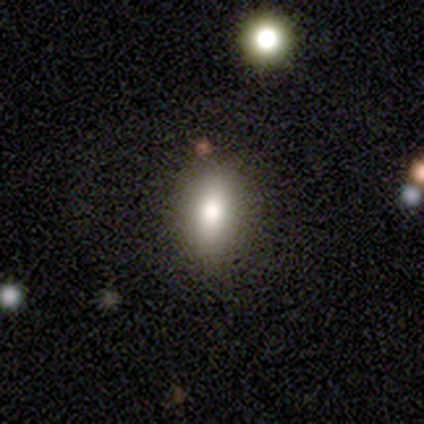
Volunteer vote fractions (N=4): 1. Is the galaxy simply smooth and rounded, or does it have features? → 75% smooth, 25% featured or disk, 0% star or artifact.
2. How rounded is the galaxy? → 100% in between, 0% round, 0% cigar-shaped.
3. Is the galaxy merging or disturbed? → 100% none, 0% minor disturbance, 0% major disturbance, 0% merger.